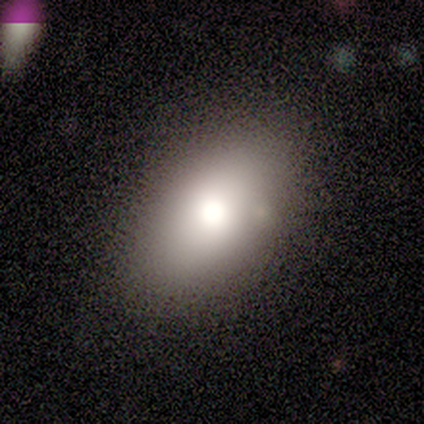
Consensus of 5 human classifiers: smooth_or_featured: smooth (p=1.00)
how_rounded: in between (p=1.00)
merging: none (p=0.80) [alt: minor disturbance p=0.20]